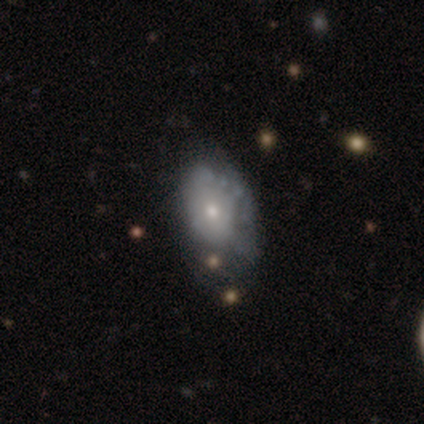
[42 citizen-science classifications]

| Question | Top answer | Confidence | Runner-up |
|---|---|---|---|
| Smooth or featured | featured or disk | 55% | smooth (38%) |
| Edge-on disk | no | 96% | yes (4%) |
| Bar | no | 86% | weak (14%) |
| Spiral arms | no | 77% | yes (23%) |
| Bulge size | small | 64% | moderate (27%) |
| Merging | none | 44% | tied: minor disturbance (44%) |